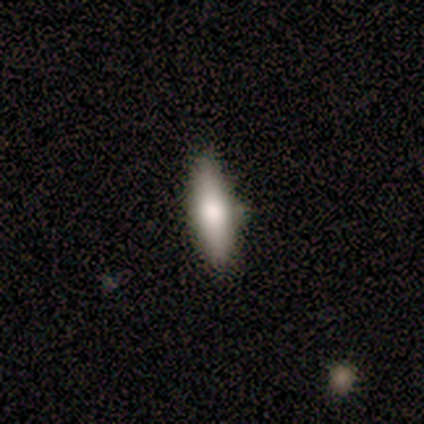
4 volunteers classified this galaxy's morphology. Smooth or featured?
  - smooth: 50% * (tied)
  - featured or disk: 50% * (tied)
  - star or artifact: 0%
How rounded?
  - in between: 50% * (tied)
  - cigar-shaped: 50% * (tied)
  - round: 0%
Merging?
  - none: 50% * (tied)
  - minor disturbance: 50% * (tied)
  - major disturbance: 0%
  - merger: 0%